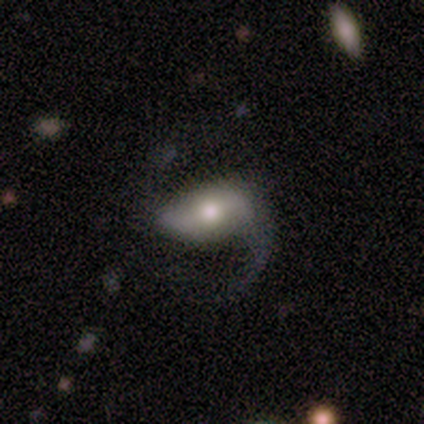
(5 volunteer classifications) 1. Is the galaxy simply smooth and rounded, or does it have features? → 80% featured or disk, 20% smooth, 0% star or artifact.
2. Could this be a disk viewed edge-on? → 100% no, 0% yes.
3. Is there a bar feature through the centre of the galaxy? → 75% strong, 25% weak, 0% no.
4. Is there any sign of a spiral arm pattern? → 100% yes, 0% no.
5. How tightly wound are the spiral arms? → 100% loose, 0% tight, 0% medium.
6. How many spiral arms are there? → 75% 2, 25% 1, 0% 3, 0% 4, 0% more than 4, 0% can't tell.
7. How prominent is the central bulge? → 100% moderate, 0% dominant, 0% large, 0% small, 0% none.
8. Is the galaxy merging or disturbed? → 40% none (tied), 40% major disturbance (tied), 20% minor disturbance, 0% merger.